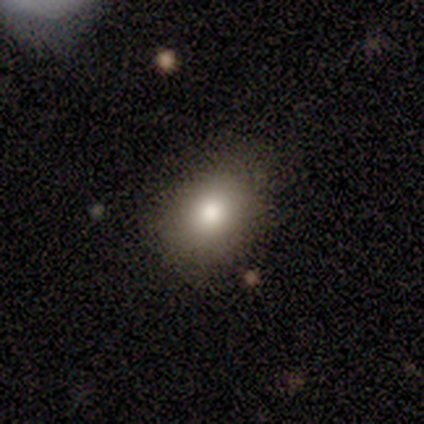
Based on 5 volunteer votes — Smooth or featured? 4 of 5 (80%) said smooth. How rounded? 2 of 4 (50%, tied with in between) said round. Merging? 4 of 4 (100%) said none.